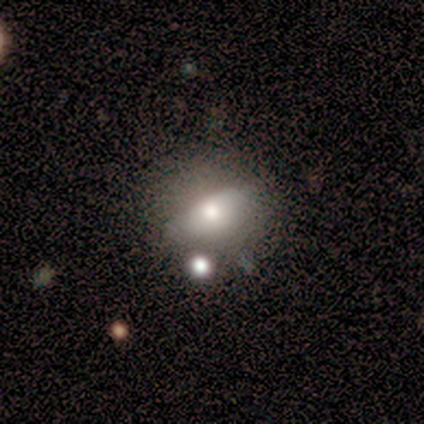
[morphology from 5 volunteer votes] Overall: smooth (40%, tied with featured or disk). How rounded: round (100%). Merging: none (50%; minor disturbance 25%).